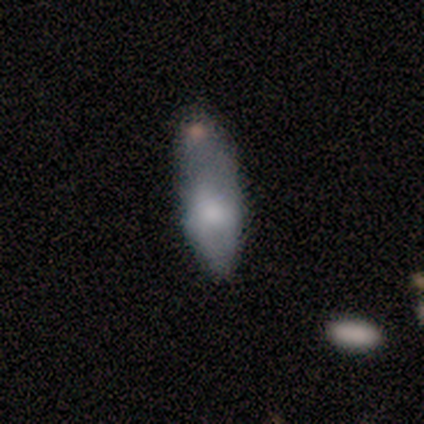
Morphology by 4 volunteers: Smooth or featured? 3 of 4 (75%) said featured or disk. Edge-on disk? 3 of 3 (100%) said no. Bar? 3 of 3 (100%) said no. Spiral arms? 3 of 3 (100%) said no. Bulge size? 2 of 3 (67%) said small. Merging? 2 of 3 (67%) said minor disturbance.